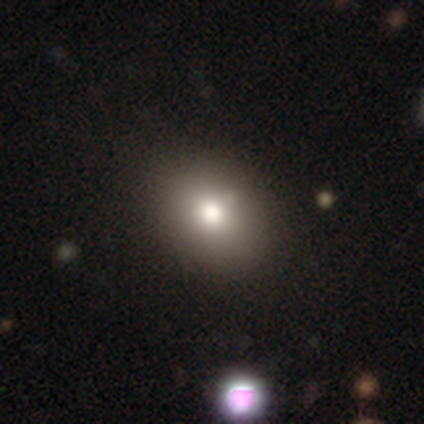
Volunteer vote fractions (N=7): This is clearly a smooth galaxy (86%). How rounded: clearly in between (83%). Merging: clearly none (100%).